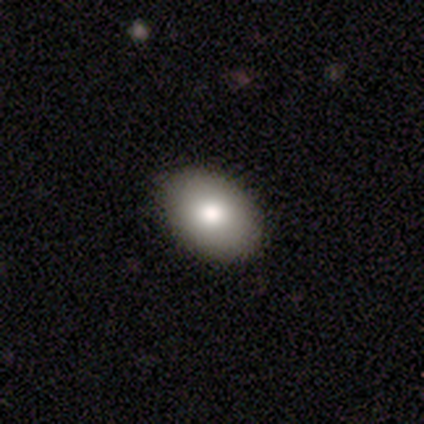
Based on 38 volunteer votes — This is likely a smooth galaxy (68%). How rounded: clearly in between (81%). Merging: likely none (62%).